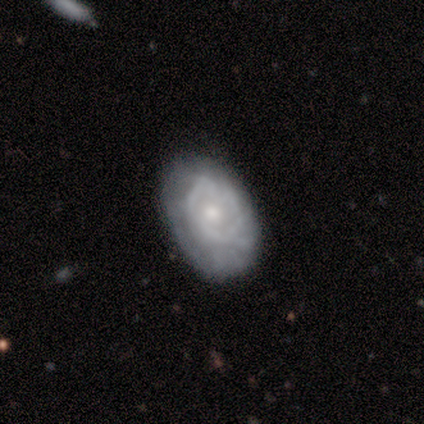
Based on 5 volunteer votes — A featured or disk galaxy (80%) with no bar (67%), tight (50%, tied with medium) spiral arms (67%) and a moderate central bulge (67%).

Vote fractions:
- Smooth or featured? featured or disk: 80% / smooth: 20% / star or artifact: 0%
- Edge-on disk? no: 75% / yes: 25%
- Bar? no: 67% / weak: 33% / strong: 0%
- Spiral arms? yes: 67% / no: 33%
- Spiral winding? tight: 50% (tied) / medium: 50% (tied) / loose: 0%
- Spiral arm count? can't tell: 100% / 1: 0% / 2: 0% / 3: 0% / 4: 0% / more than 4: 0%
- Bulge size? moderate: 67% / small: 33% / dominant: 0% / large: 0% / none: 0%
- Merging? none: 60% / minor disturbance: 40% / major disturbance: 0% / merger: 0%